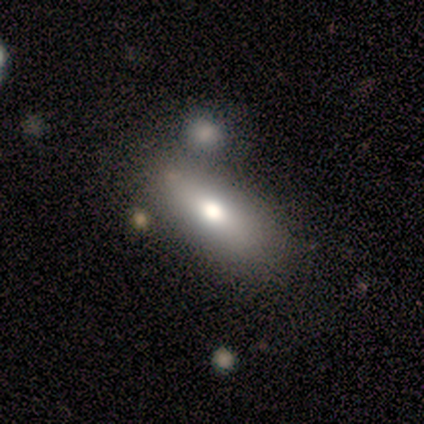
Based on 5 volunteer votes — A smooth galaxy with no disk features (80%) that is in between round and cigar-shaped (100%). Merging: none (60%).